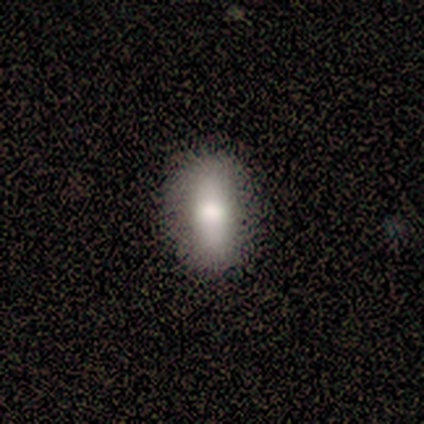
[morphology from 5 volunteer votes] This appears to be a smooth galaxy with no disk features (60%) that is in between round and cigar-shaped (100%). Merging: none (100%).